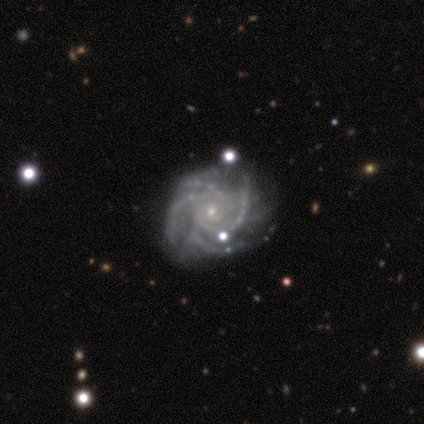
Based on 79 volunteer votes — Smooth or featured: featured or disk — 97% (smooth — 1%)
Edge-on disk: no — 99% (yes — 1%)
Bar: no — 75% (weak — 18%)
Spiral arms: yes — 99% (no — 1%)
Spiral winding: tight — 67% (medium — 29%)
Spiral arm count: 4 — 67% (can't tell — 17%)
Bulge size: small — 87% (moderate — 8%)
Merging: none — 56% (minor disturbance — 5%)